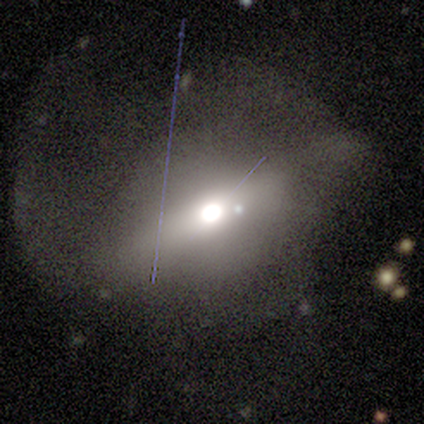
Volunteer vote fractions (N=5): Smooth or featured?
  - smooth: 40% * (tied)
  - featured or disk: 40% * (tied)
  - star or artifact: 20%
How rounded?
  - round: 50% * (tied)
  - cigar-shaped: 50% * (tied)
  - in between: 0%
Merging?
  - major disturbance: 75% *
  - none: 25%
  - minor disturbance: 0%
  - merger: 0%